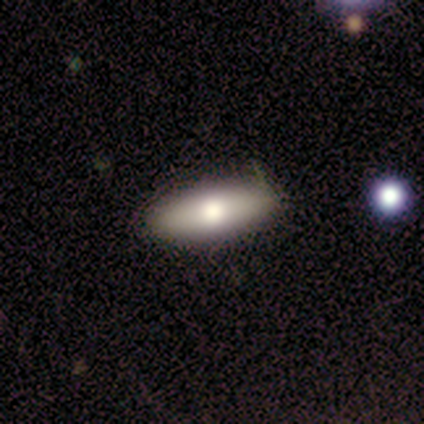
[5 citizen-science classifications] A smooth galaxy with no disk features (60%) that is in between round and cigar-shaped (100%).

Vote fractions:
- Smooth or featured? smooth: 60% / featured or disk: 40% / star or artifact: 0%
- How rounded? in between: 100% / round: 0% / cigar-shaped: 0%
- Merging? none: 80% / minor disturbance: 20% / major disturbance: 0% / merger: 0%